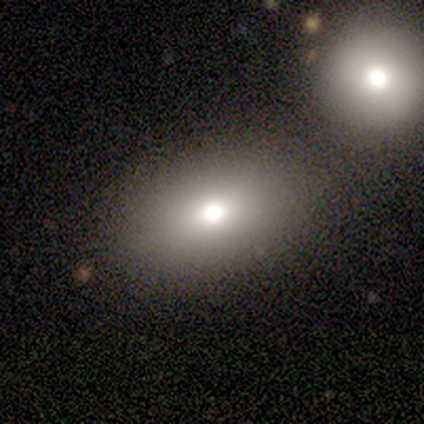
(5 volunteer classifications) Smooth or featured: smooth — 80% (featured or disk — 20%)
How rounded: round — 50% (tied with in between — 50%)
Merging: none — 60% (merger — 40%)